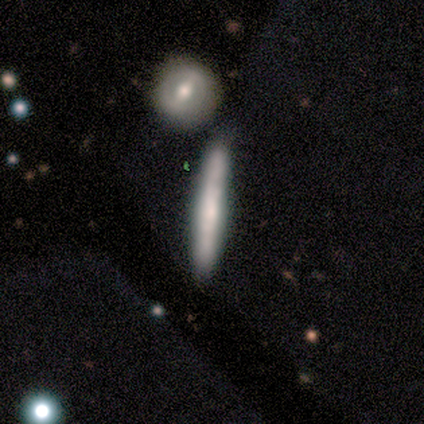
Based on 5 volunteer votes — Q: Smooth or featured?
A: smooth (80%); runner-up: featured or disk (20%)
Q: How rounded?
A: cigar-shaped (100%)
Q: Merging?
A: none (60%); runner-up: major disturbance (20%)